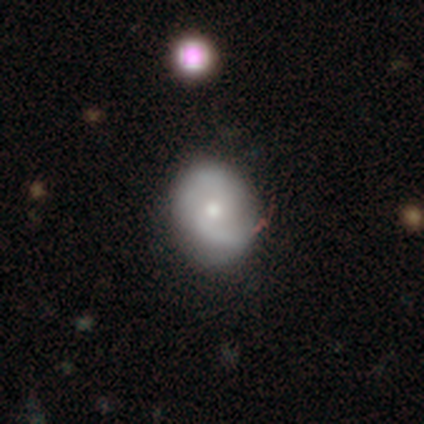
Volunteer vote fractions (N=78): smooth-or-featured: featured or disk: 54% | smooth: 41% | star or artifact: 5%
  disk-edge-on: no: 98% | yes: 2%
    bar: no: 95% | weak: 5% | strong: 0%
    has-spiral-arms: yes: 78% | no: 22%
      spiral-winding: medium: 44% | loose: 41% | tight: 16%
      spiral-arm-count: 2: 78% | can't tell: 12% | 1: 9% | 3: 0% | 4: 0% | more than 4: 0%
    bulge-size: small: 49% | moderate: 44% | dominant: 2% | large: 2% | none: 2%
  merging: none: 38% | merger: 8% | minor disturbance: 5% | major disturbance: 4%